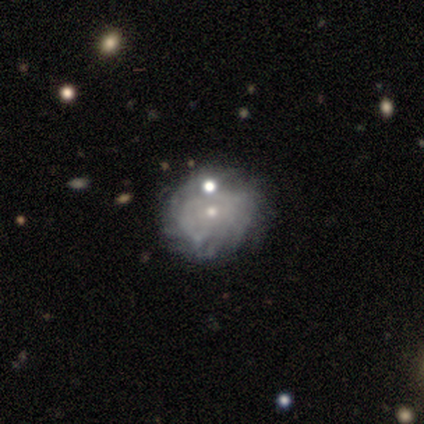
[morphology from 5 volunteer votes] smooth_or_featured: featured or disk (p=0.60) [alt: star or artifact p=0.40]
disk_edge_on: no (p=1.00)
bar: no (p=1.00)
has_spiral_arms: no (p=0.67) [alt: yes p=0.33]
bulge_size: moderate (p=0.67) [alt: small p=0.33]
merging: none (p=0.67) [alt: minor disturbance p=0.33]